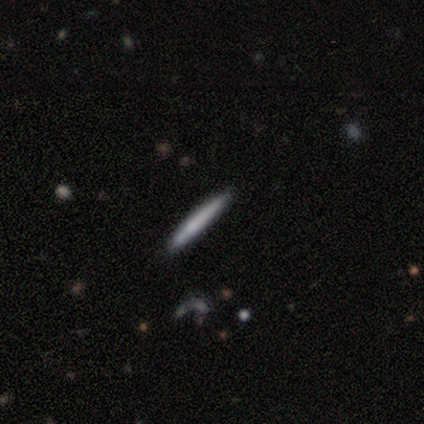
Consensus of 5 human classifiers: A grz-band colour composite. It shows a smooth galaxy with no disk features (60%) that is cigar-shaped (100%). Merging: none (100%).